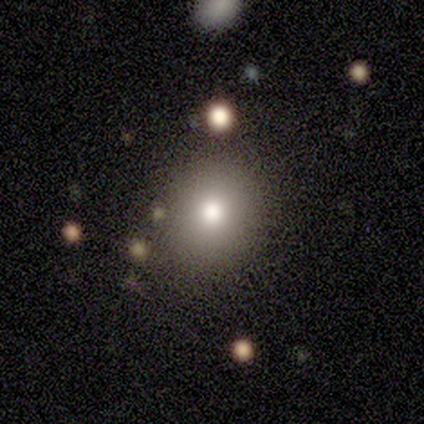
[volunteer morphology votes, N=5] Smooth or featured? smooth (80%)
How rounded? round (100%)
Merging? none (100%)